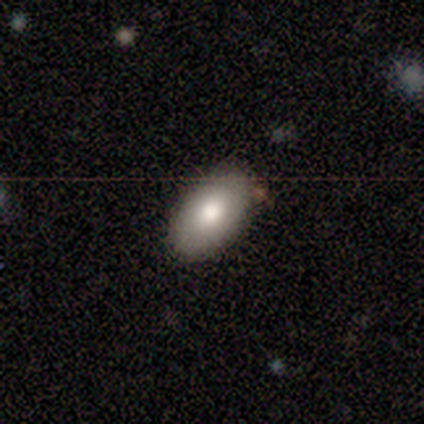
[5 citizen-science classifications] smooth-or-featured: smooth: 100% | featured or disk: 0% | star or artifact: 0%
  how-rounded: in between: 80% | round: 20% | cigar-shaped: 0%
  merging: none: 100% | minor disturbance: 0% | major disturbance: 0% | merger: 0%